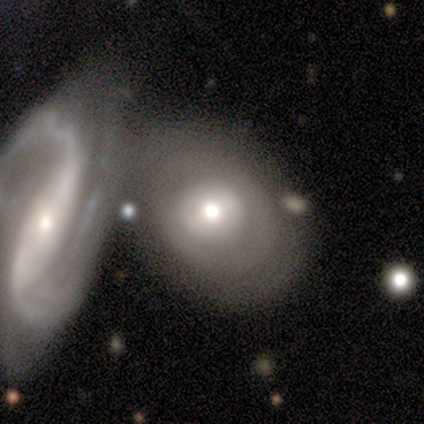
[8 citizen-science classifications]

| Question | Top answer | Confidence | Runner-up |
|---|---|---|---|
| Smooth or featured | featured or disk | 100% | — |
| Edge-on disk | no | 88% | yes (12%) |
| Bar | no | 57% | strong (29%) |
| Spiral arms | no | 86% | yes (14%) |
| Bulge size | moderate | 43% | large (29%) |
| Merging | merger | 50% | minor disturbance (38%) |